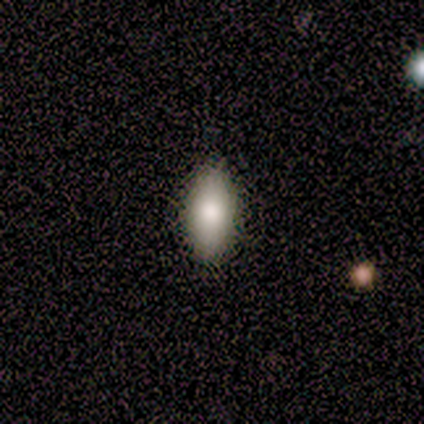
smooth_or_featured: smooth (p=0.60) [alt: star or artifact p=0.40]
how_rounded: in between (p=1.00)
merging: none (p=1.00)